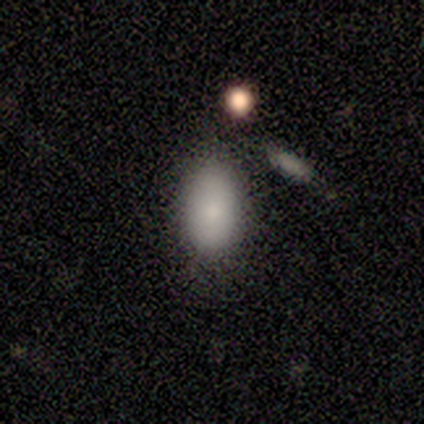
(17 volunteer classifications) Smooth or featured: smooth — 100%
How rounded: in between — 88% (round — 12%)
Merging: none — 59% (minor disturbance — 29%)